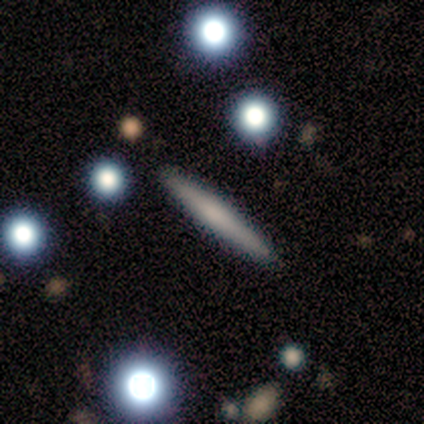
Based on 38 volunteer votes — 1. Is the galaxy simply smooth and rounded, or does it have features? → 53% smooth, 34% featured or disk, 13% star or artifact.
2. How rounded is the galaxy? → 100% cigar-shaped, 0% round, 0% in between.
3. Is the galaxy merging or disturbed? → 85% none, 15% minor disturbance, 0% major disturbance, 0% merger.